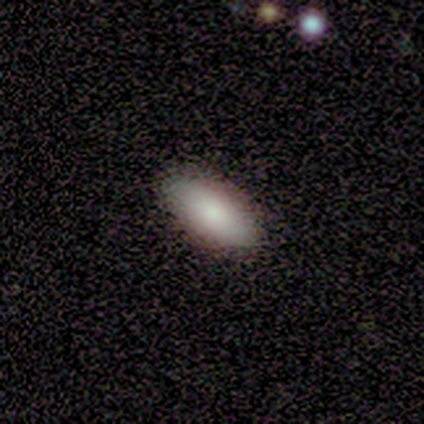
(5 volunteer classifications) Consensus on every question: smooth or featured — smooth (100%); how rounded — in between (100%); merging — none (100%).